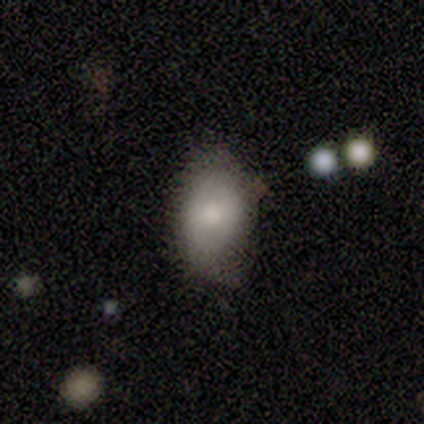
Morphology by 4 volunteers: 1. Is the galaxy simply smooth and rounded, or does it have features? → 50% smooth (tied), 50% featured or disk (tied), 0% star or artifact.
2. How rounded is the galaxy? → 100% in between, 0% round, 0% cigar-shaped.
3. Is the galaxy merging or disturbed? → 100% minor disturbance, 0% none, 0% major disturbance, 0% merger.